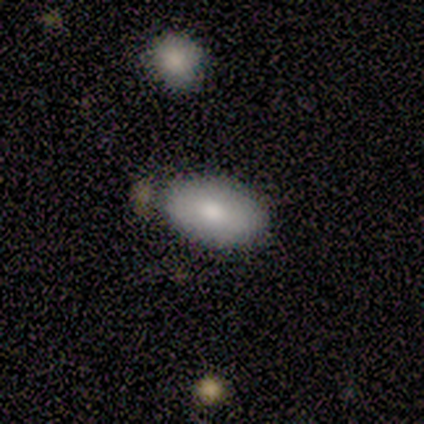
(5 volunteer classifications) Morphology: type=smooth (80%); roundness=in between (100%); merging=none (60%).